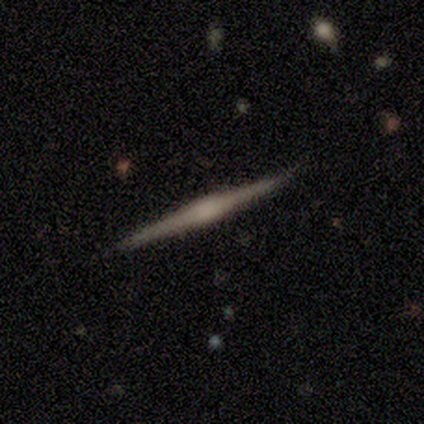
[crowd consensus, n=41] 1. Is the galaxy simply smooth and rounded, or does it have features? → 88% featured or disk, 12% smooth, 0% star or artifact.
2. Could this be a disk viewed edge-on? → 100% yes, 0% no.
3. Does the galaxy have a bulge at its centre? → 47% boxy (tied), 47% rounded (tied), 6% none.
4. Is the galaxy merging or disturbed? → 90% none, 10% minor disturbance, 0% major disturbance, 0% merger.